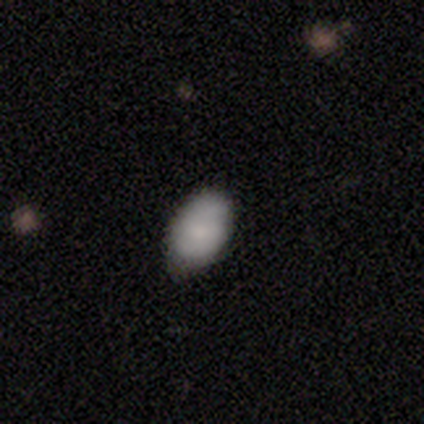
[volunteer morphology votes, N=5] Volunteers were most divided on "merging": none: 60%, minor disturbance: 40%, major disturbance: 0%, merger: 0%. More confident: smooth or featured — smooth (100%); how rounded — in between (80%).